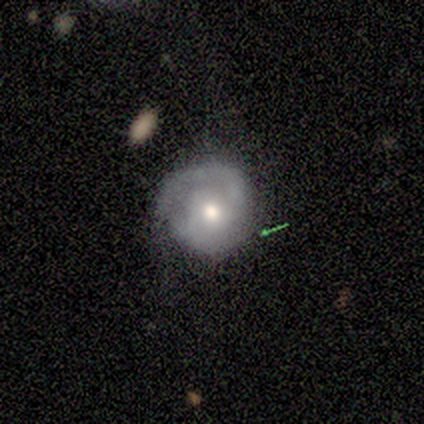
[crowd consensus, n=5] Q: Smooth or featured?
A: featured or disk (40%); tied with: star or artifact (40%)
Q: Edge-on disk?
A: no (100%)
Q: Bar?
A: no (100%)
Q: Spiral arms?
A: yes (100%)
Q: Spiral winding?
A: medium (100%)
Q: Spiral arm count?
A: 1 (50%); tied with: 2 (50%)
Q: Bulge size?
A: moderate (100%)
Q: Merging?
A: none (33%); tied with: minor disturbance (33%); major disturbance (33%)